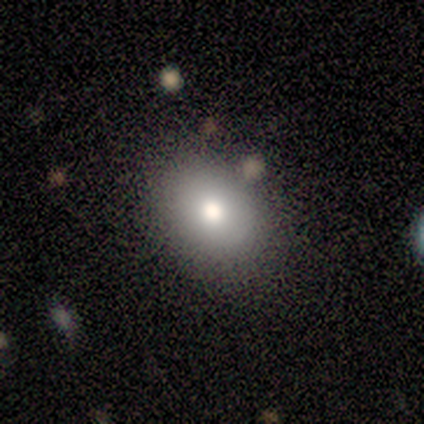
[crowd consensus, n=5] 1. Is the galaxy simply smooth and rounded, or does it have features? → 80% smooth, 20% featured or disk, 0% star or artifact.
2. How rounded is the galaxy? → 50% round (tied), 50% in between (tied), 0% cigar-shaped.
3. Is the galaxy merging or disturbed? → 80% none, 20% minor disturbance, 0% major disturbance, 0% merger.